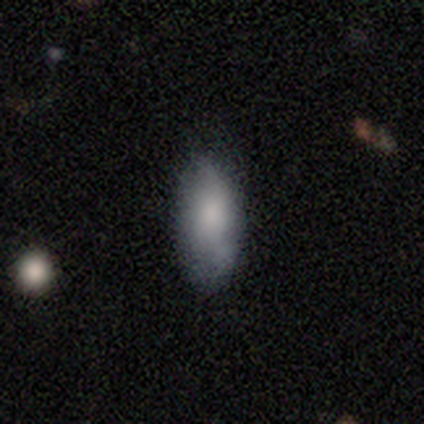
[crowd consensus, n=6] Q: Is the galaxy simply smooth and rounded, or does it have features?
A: smooth — 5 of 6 (83%).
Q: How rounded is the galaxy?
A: in between — 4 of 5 (80%).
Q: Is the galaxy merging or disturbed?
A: none — 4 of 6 (67%).